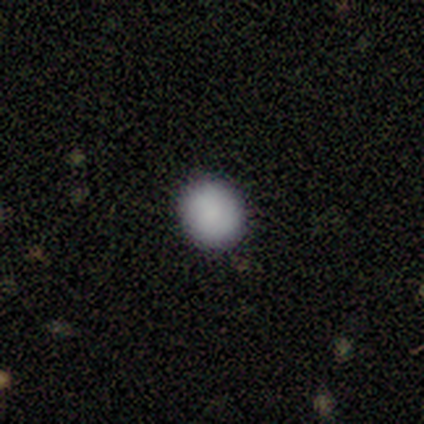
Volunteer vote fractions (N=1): Smooth or featured? smooth (100%)
How rounded? round (100%)
Merging? none (100%)